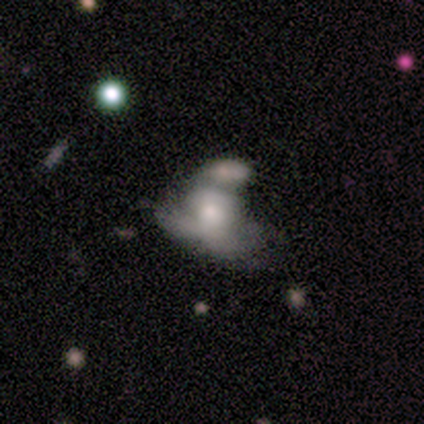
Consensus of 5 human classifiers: Morphology: type=featured or disk (60%); edge-on=no (100%); bar=no (100%); spiral arms=no (67%); bulge=moderate (33%, tied with small and none); merging=merger (60%).